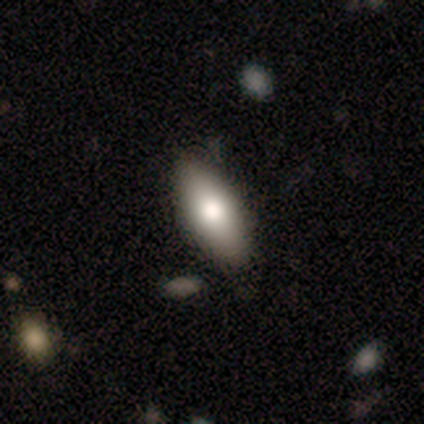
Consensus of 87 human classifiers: Smooth or featured? 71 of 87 (82%) said smooth. How rounded? 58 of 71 (82%) said in between. Merging? 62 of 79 (78%) said none.